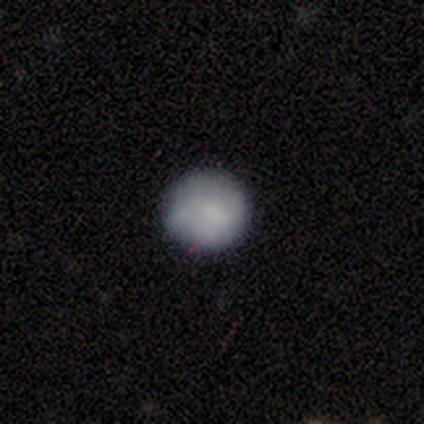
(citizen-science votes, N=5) A smooth galaxy with no disk features (80%) that is round (100%). Merging: none (100%).